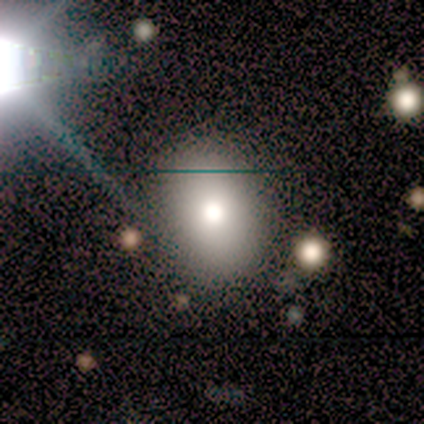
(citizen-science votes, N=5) This appears to be a smooth galaxy with no disk features (60%) that is round (100%). Merging: none (100%).